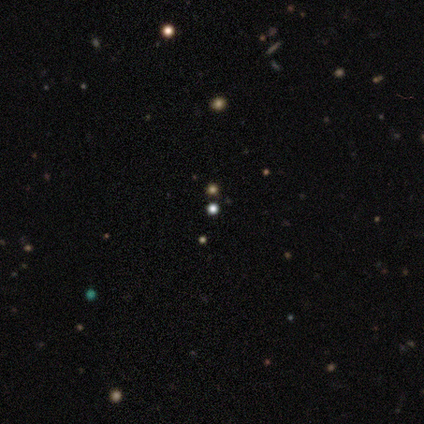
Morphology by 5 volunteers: Smooth or featured? smooth (60%)
How rounded? round (100%)
Merging? none (100%)